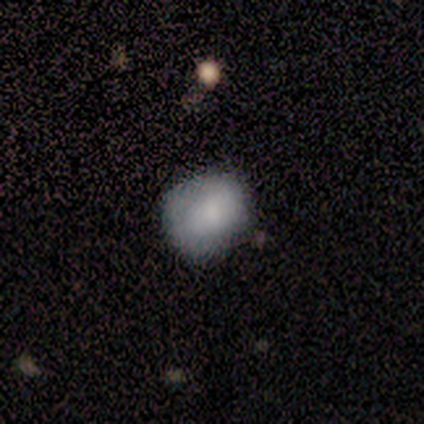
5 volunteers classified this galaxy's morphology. Overall: smooth (60%; featured or disk 40%). How rounded: in between (67%; round 33%). Merging: minor disturbance (60%; none 40%).